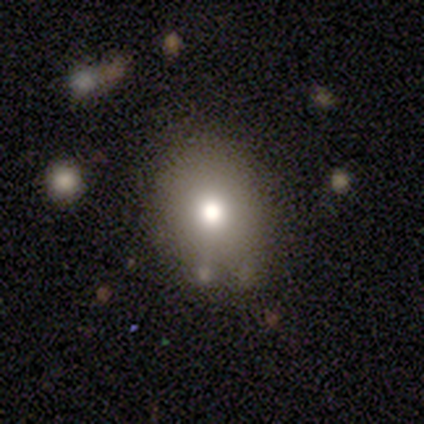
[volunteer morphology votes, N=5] Overall: smooth (80%). How rounded: round (50%, tied with in between). Merging: none (100%).